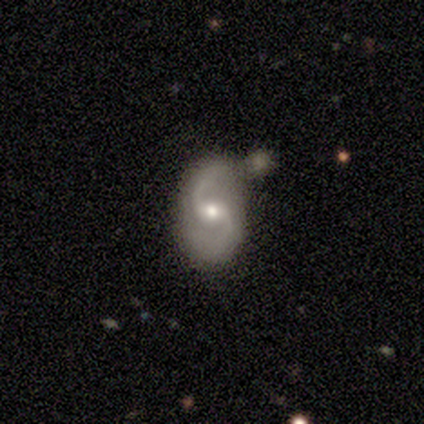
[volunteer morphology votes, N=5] smooth_or_featured: featured or disk (p=0.80) [alt: smooth p=0.20]
disk_edge_on: no (p=1.00)
bar: weak (p=1.00)
has_spiral_arms: yes (p=0.75) [alt: no p=0.25]
spiral_winding: medium (p=1.00)
spiral_arm_count: 2 (p=1.00)
bulge_size: small (p=0.75) [alt: moderate p=0.25]
merging: none (p=0.60) [alt: merger p=0.40]